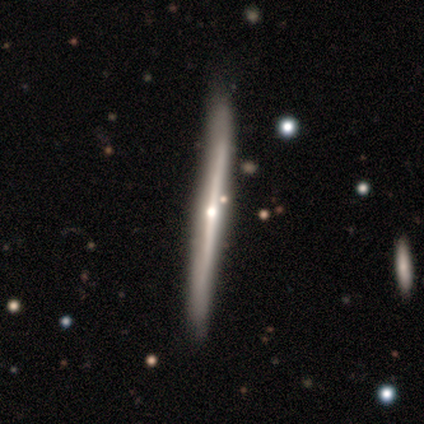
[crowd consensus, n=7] Smooth or featured: featured or disk — 86% (smooth — 14%)
Edge-on disk: yes — 100%
Edge-on bulge: rounded — 67% (boxy — 17%)
Merging: none — 71% (minor disturbance — 14%)